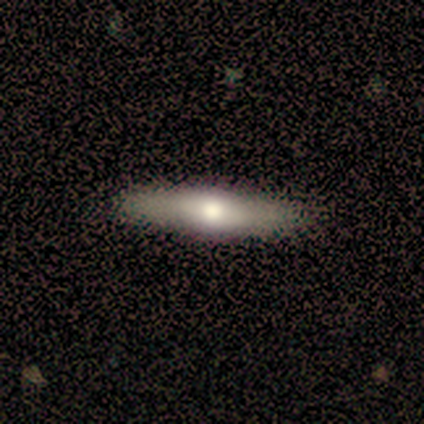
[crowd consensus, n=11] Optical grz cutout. It shows a featured or disk galaxy (64%) viewed edge-on (86%) with a rounded central bulge (67%). Merging: none (64%).